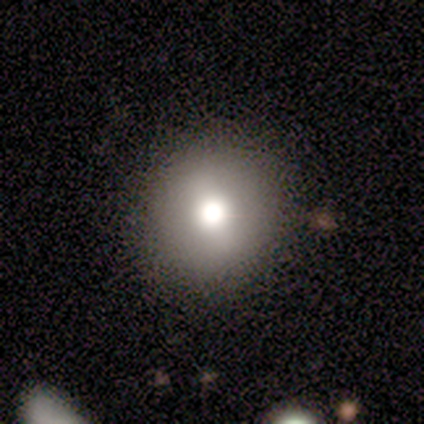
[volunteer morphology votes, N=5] smooth 80%, featured or disk 20%, star or artifact 0%. Down the decision tree: how rounded — round (100%); merging — none (80%).